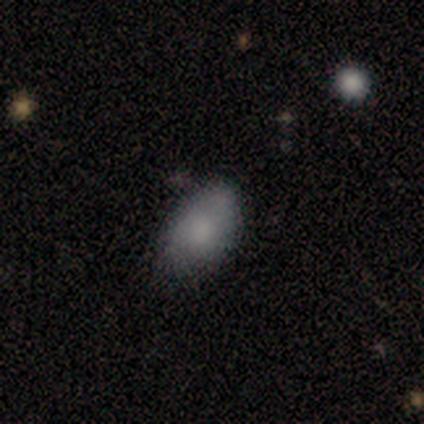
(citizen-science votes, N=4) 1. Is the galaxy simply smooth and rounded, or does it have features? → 100% smooth, 0% featured or disk, 0% star or artifact.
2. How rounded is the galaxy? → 100% in between, 0% round, 0% cigar-shaped.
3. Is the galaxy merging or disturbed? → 100% none, 0% minor disturbance, 0% major disturbance, 0% merger.